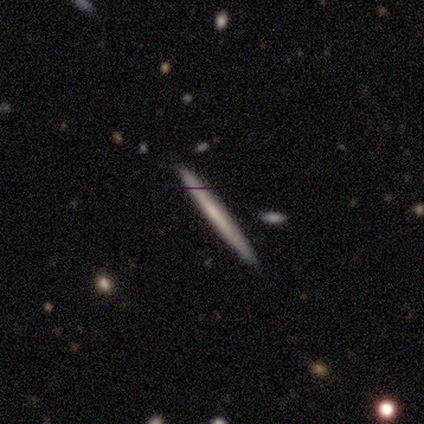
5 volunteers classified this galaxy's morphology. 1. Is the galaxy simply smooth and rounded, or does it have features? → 60% featured or disk, 20% smooth, 20% star or artifact.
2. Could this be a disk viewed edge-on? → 100% yes, 0% no.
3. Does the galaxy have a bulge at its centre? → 100% none, 0% boxy, 0% rounded.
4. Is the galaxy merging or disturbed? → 100% none, 0% minor disturbance, 0% major disturbance, 0% merger.